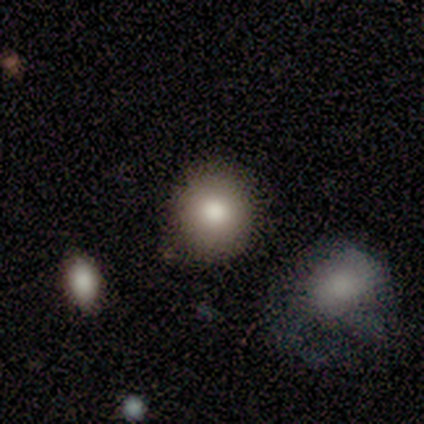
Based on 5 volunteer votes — Smooth or featured: smooth — 80% (star or artifact — 20%)
How rounded: round — 100%
Merging: none — 100%